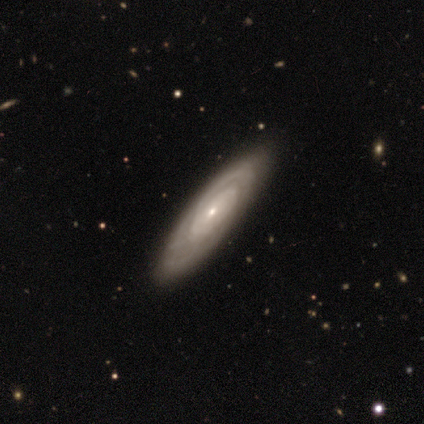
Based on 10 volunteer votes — A featured or disk galaxy (50%) with no bar (100%), tight (33%, tied with medium and loose) spiral arms (75%) and a moderate central bulge (50%, tied with small).

Vote fractions:
- Smooth or featured? featured or disk: 50% / smooth: 30% / star or artifact: 20%
- Edge-on disk? no: 80% / yes: 20%
- Bar? no: 100% / strong: 0% / weak: 0%
- Spiral arms? yes: 75% / no: 25%
- Spiral winding? tight: 33% (tied) / medium: 33% (tied) / loose: 33% (tied)
- Spiral arm count? can't tell: 67% / 1: 33% / 2: 0% / 3: 0% / 4: 0% / more than 4: 0%
- Bulge size? moderate: 50% (tied) / small: 50% (tied) / dominant: 0% / large: 0% / none: 0%
- Merging? none: 75% / minor disturbance: 25% / major disturbance: 0% / merger: 0%